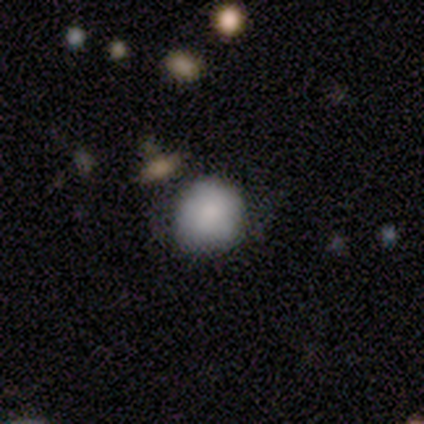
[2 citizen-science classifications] Overall: featured or disk (100%). Edge-on disk: no (100%). Bar: weak (50%, tied with no). Spiral arms: yes (50%, tied with no). Spiral arm count: can't tell (100%). Spiral winding: tight (100%). Bulge size: moderate (50%, tied with small). Merging: none (50%, tied with minor disturbance).